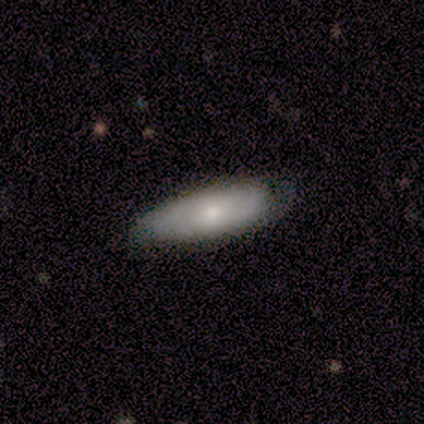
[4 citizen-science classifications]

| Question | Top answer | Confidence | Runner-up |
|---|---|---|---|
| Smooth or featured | featured or disk | 50% | smooth (25%) |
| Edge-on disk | yes | 50% | tied: no (50%) |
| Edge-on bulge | boxy | 100% | — |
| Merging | none | 33% | tied: minor disturbance (33%), major disturbance (33%) |